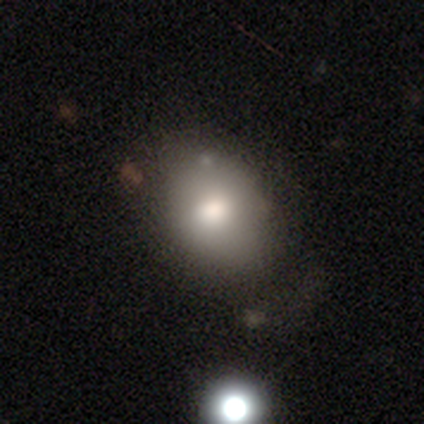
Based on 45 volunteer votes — smooth-or-featured: smooth: 82% | featured or disk: 9% | star or artifact: 9%
  how-rounded: in between: 57% | round: 43% | cigar-shaped: 0%
  merging: none: 73% | minor disturbance: 17% | major disturbance: 7% | merger: 2%